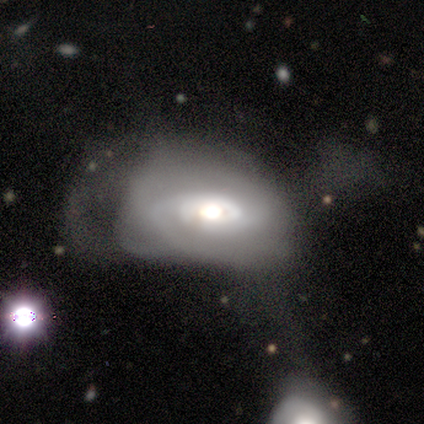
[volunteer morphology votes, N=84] This appears to be a featured or disk galaxy (71%) with no bar (88%), 2 (43%, tied with can't tell) tight (65%) spiral arms (78%) and a moderate central bulge (56%). Merging: major disturbance (48%).